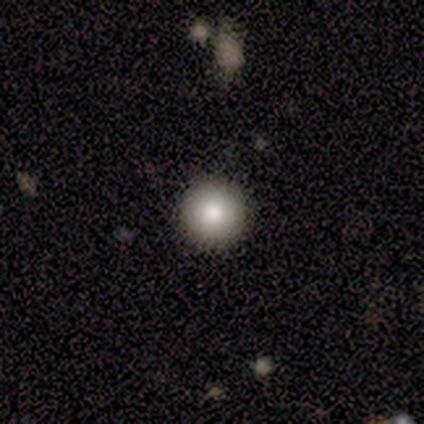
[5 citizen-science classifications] A smooth galaxy with no disk features (60%) that is round (100%). Merging: none (100%).